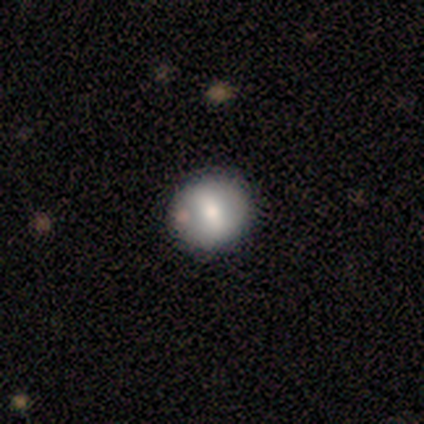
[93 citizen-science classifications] smooth_or_featured: smooth (p=0.63) [alt: featured or disk p=0.29]
how_rounded: round (p=0.88) [alt: in between p=0.12]
merging: none (p=0.74) [alt: minor disturbance p=0.19]